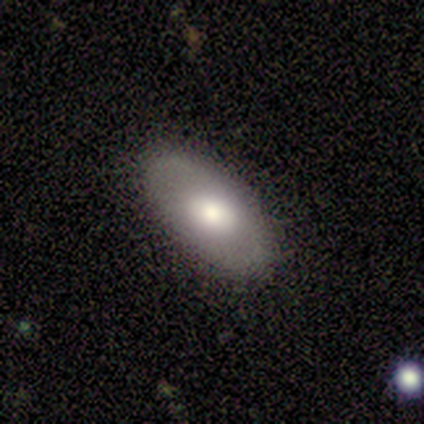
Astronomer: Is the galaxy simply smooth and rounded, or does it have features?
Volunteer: smooth — 80%.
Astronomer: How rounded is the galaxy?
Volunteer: in between — 100%.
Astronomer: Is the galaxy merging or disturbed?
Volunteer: none — 100%.